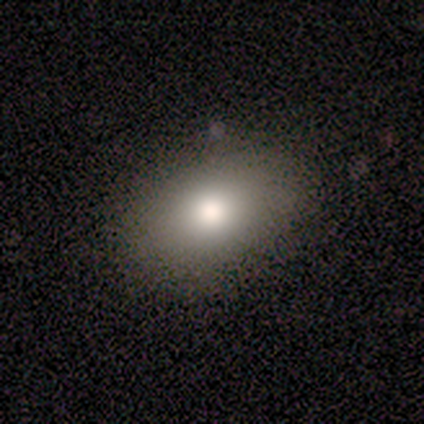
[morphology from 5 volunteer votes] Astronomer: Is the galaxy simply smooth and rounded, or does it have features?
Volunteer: smooth — 100%.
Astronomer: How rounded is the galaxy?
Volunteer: in between — 100%.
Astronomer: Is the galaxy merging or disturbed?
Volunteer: none — 100%.